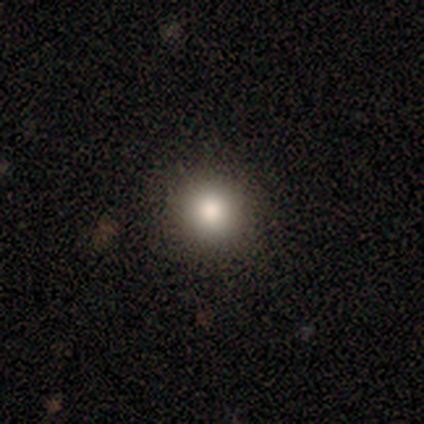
smooth_or_featured: smooth (p=0.50) [tied with: star or artifact p=0.50]
how_rounded: round (p=1.00)
merging: none (p=1.00)